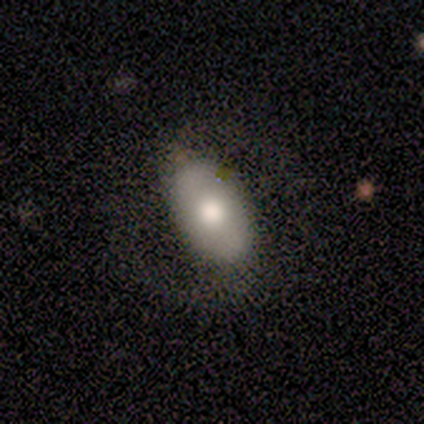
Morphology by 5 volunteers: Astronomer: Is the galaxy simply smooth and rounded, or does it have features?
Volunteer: featured or disk — 60% (runner-up: smooth, 40%).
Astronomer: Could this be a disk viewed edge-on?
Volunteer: no — 100%.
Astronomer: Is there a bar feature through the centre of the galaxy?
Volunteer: no — 67%.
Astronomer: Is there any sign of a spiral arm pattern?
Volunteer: no — 67%.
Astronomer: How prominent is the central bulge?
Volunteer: large — 33%, tied with moderate and small at 33%.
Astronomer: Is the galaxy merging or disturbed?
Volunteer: none — 80%.